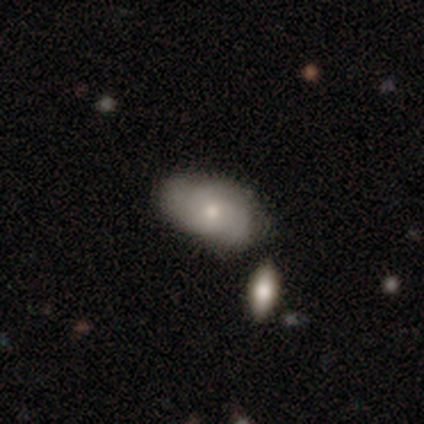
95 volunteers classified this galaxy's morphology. This is possibly a smooth galaxy (53%). How rounded: clearly in between (92%). Merging: possibly none (55%).